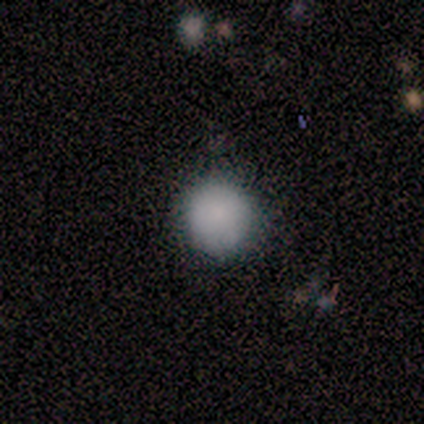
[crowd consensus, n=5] Smooth or featured: smooth — 100%
How rounded: round — 80% (in between — 20%)
Merging: none — 80% (minor disturbance — 20%)